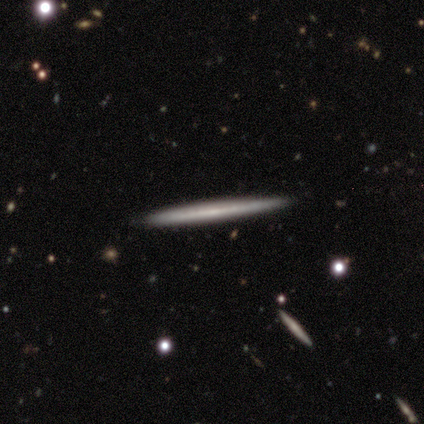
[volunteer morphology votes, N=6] Overall: smooth (67%; featured or disk 33%). How rounded: cigar-shaped (100%). Merging: none (67%; minor disturbance 33%).